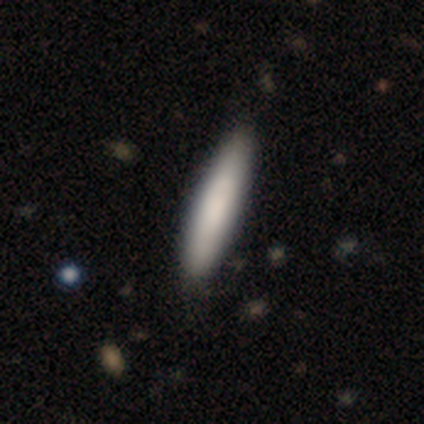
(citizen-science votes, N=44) Smooth or featured? 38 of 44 (86%) said smooth. How rounded? 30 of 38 (79%) said cigar-shaped. Merging? 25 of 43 (58%) said none.